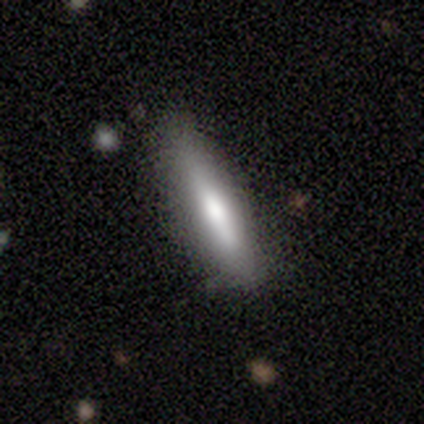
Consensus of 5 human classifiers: Smooth or featured? featured or disk (60%)
Edge-on disk? yes (100%)
Edge-on bulge? rounded (100%)
Merging? none (60%)